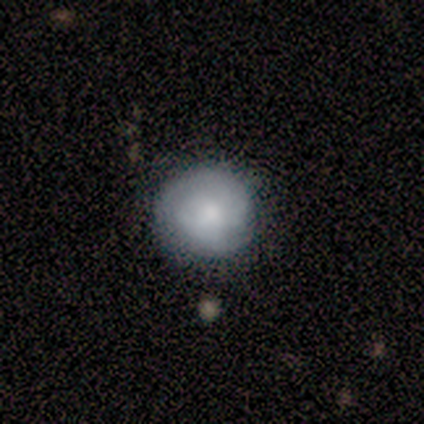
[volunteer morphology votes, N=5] A smooth galaxy with no disk features (80%) that is round (100%). Merging: none (100%).